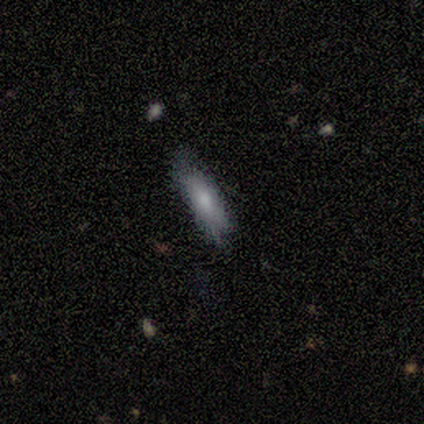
Q: Smooth or featured?
A: smooth (80%); runner-up: star or artifact (20%)
Q: How rounded?
A: cigar-shaped (75%); runner-up: in between (25%)
Q: Merging?
A: minor disturbance (100%)